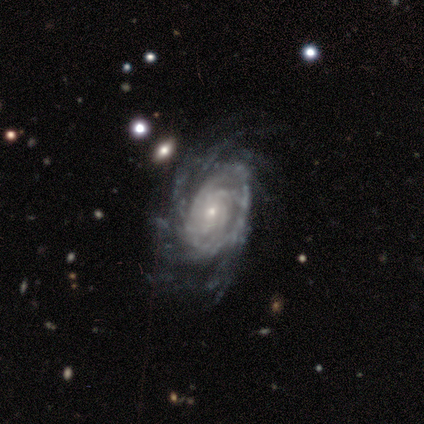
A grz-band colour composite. It shows a featured or disk galaxy (100%) with no bar (100%), more than 4 (60%) tight (60%) spiral arms (100%) and a small central bulge (100%). Merging: none (80%).